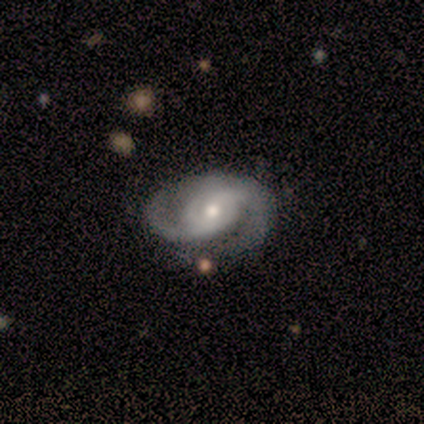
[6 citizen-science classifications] Volunteers were most divided on "bar": no: 67%, weak: 33%, strong: 0%. More confident: smooth or featured — featured or disk (100%); edge-on disk — no (100%); spiral arm count — 2 (100%); spiral arms — yes (83%); bulge size — moderate (83%); merging — none (83%); spiral winding — tight (80%).